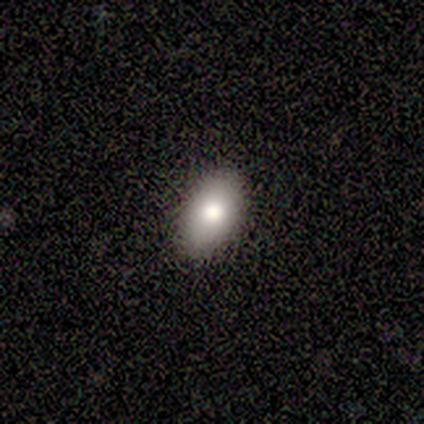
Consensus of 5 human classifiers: Overall: smooth (80%). How rounded: in between (100%). Merging: none (100%).